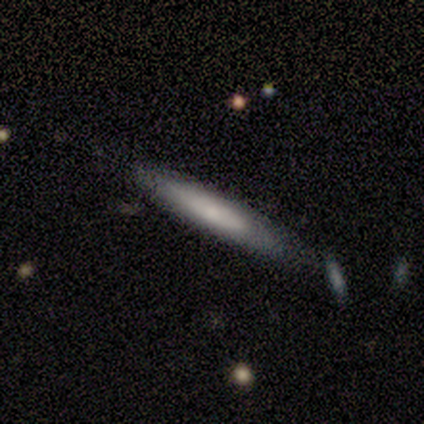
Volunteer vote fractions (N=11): Smooth or featured?
  - smooth: 55% *
  - featured or disk: 36%
  - star or artifact: 9%
How rounded?
  - cigar-shaped: 83% *
  - in between: 17%
  - round: 0%
Merging?
  - none: 90% *
  - minor disturbance: 10%
  - major disturbance: 0%
  - merger: 0%